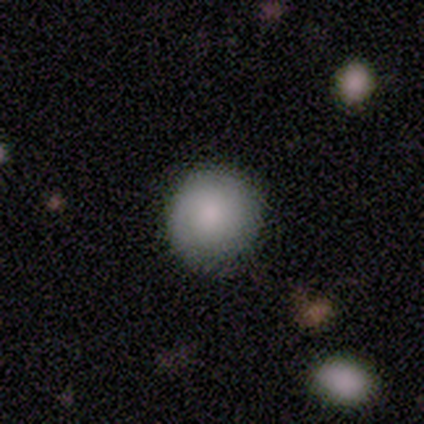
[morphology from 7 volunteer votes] Smooth or featured? 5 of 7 (71%) said smooth. How rounded? 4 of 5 (80%) said round. Merging? 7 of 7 (100%) said none.